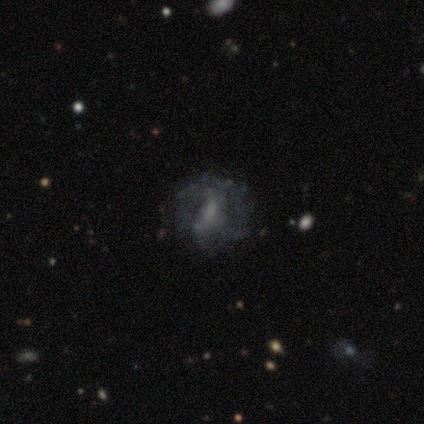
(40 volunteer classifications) smooth_or_featured: featured or disk (p=0.68) [alt: smooth p=0.20]
disk_edge_on: no (p=1.00)
bar: weak (p=0.59) [alt: no p=0.41]
has_spiral_arms: no (p=0.63) [alt: yes p=0.37]
bulge_size: none (p=0.59) [alt: small p=0.22]
merging: none (p=0.71) [alt: major disturbance p=0.17]